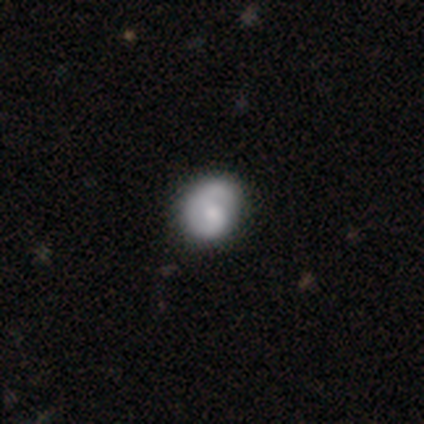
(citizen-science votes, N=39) Smooth or featured? featured or disk (64%)
Edge-on disk? no (100%)
Bar? no (76%)
Spiral arms? yes (84%)
Spiral winding? tight (48%)
Spiral arm count? 1 (52%)
Bulge size? moderate (44%)
Merging? none (49%)